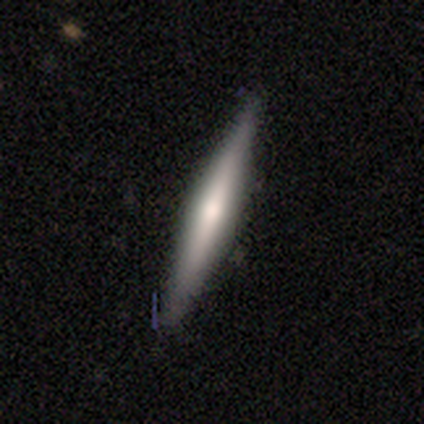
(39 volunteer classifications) This is possibly a featured or disk galaxy (56%). It is clearly viewed edge-on (100%). Edge-on bulge: possibly rounded (55%). Merging: clearly none (87%).